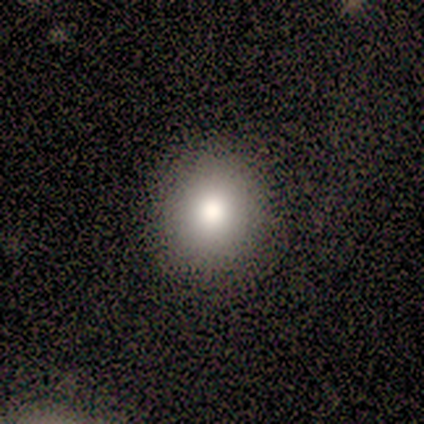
This is clearly a smooth galaxy (80%). How rounded: likely round (75%). Merging: clearly none (100%).